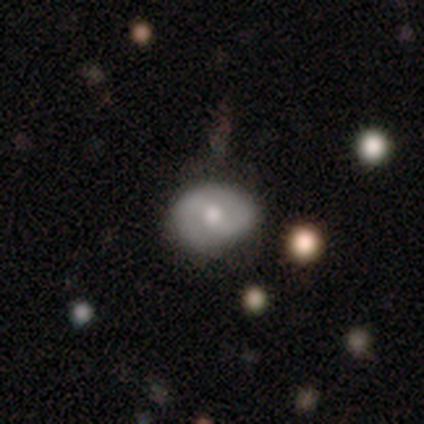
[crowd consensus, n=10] This appears to be a smooth galaxy with no disk features (60%) that is round (50%, tied with in between). Merging: none (80%).